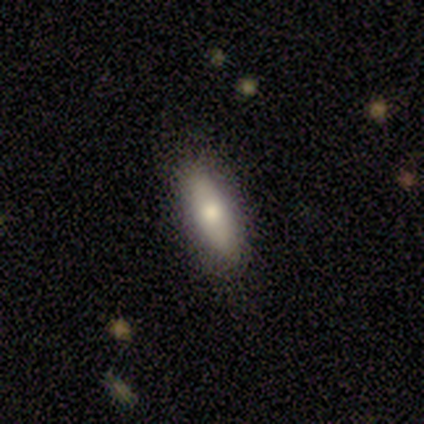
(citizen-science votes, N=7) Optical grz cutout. It shows a smooth galaxy with no disk features (86%) that is cigar-shaped (83%). Merging: none (100%).